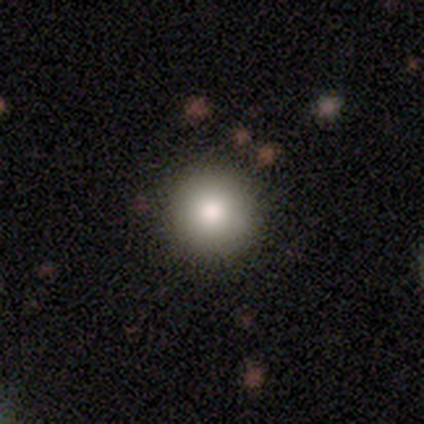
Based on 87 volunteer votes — Smooth or featured? 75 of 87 (86%) said smooth. How rounded? 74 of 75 (99%) said round. Merging? 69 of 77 (90%) said none.